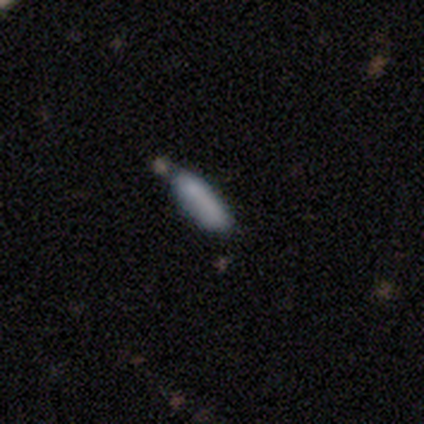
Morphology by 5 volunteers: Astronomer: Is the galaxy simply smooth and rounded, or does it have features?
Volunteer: smooth — 100%.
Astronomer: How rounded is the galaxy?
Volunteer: cigar-shaped — 80%.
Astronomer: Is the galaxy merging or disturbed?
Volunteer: none — 60% (runner-up: merger, 40%).